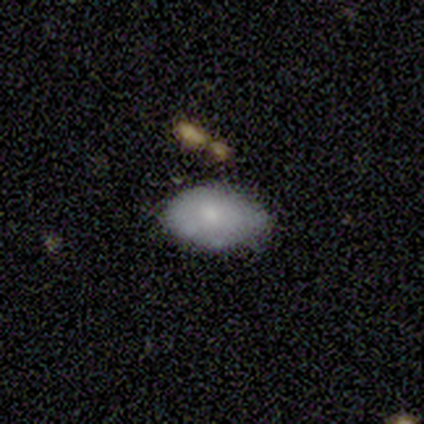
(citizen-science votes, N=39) This is likely a smooth galaxy (79%). How rounded: clearly in between (97%). Merging: likely none (78%).